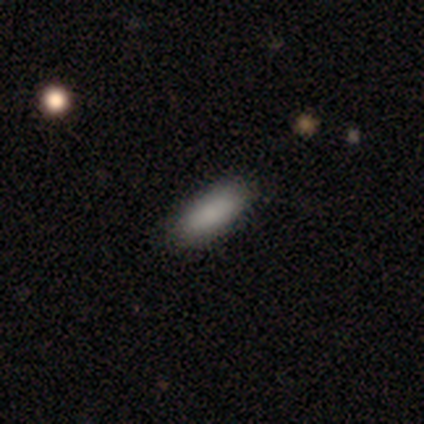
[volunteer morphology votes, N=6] This appears to be a smooth galaxy with no disk features (83%) that is in between round and cigar-shaped (100%). Merging: none (67%).